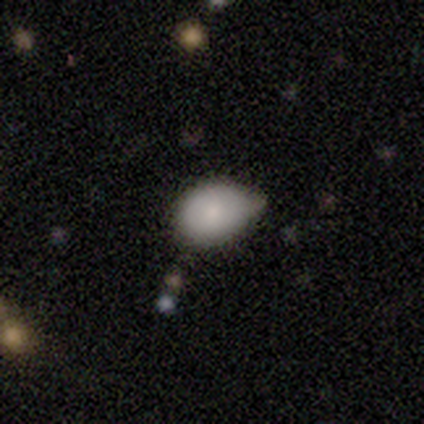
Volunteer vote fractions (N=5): smooth-or-featured: smooth: 60% | featured or disk: 20% | star or artifact: 20%
  how-rounded: in between: 67% | round: 33% | cigar-shaped: 0%
  merging: minor disturbance: 75% | none: 25% | major disturbance: 0% | merger: 0%